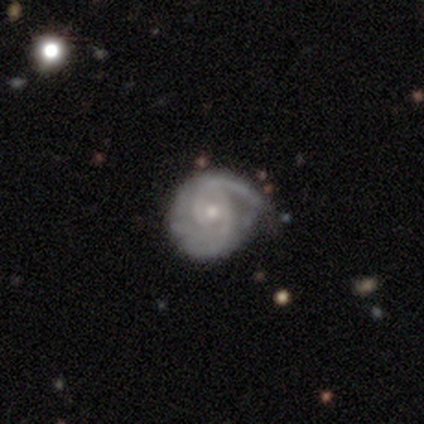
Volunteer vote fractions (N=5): featured or disk 100%, smooth 0%, star or artifact 0%. Down the decision tree: edge-on disk — no (100%); bar — weak (60%); spiral arms — yes (100%); spiral arm count — 2 (80%); spiral winding — tight (80%); bulge size — small (60%); merging — none (80%).